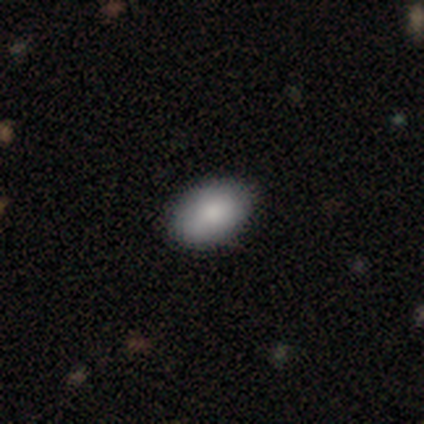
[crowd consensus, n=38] smooth-or-featured: smooth: 92% | featured or disk: 5% | star or artifact: 3%
  how-rounded: in between: 89% | round: 9% | cigar-shaped: 3%
  merging: none: 81% | minor disturbance: 16% | major disturbance: 3% | merger: 0%